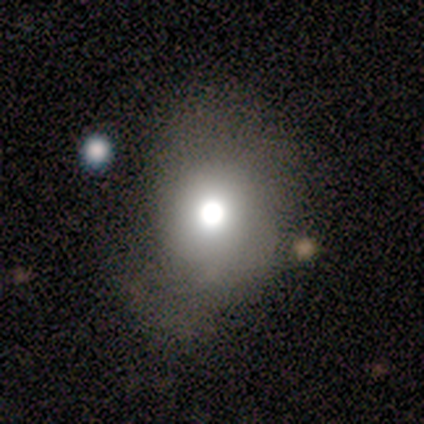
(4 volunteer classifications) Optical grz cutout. It shows a smooth galaxy with no disk features (75%) that is in between round and cigar-shaped (67%). Merging: major disturbance (67%).